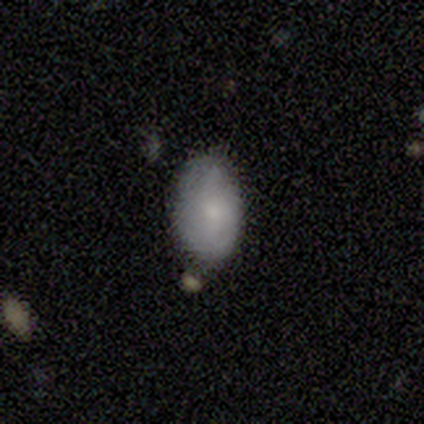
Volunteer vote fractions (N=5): Volunteers were most divided on "merging": none: 80%, major disturbance: 20%, minor disturbance: 0%, merger: 0%. More confident: smooth or featured — smooth (100%); how rounded — in between (100%).